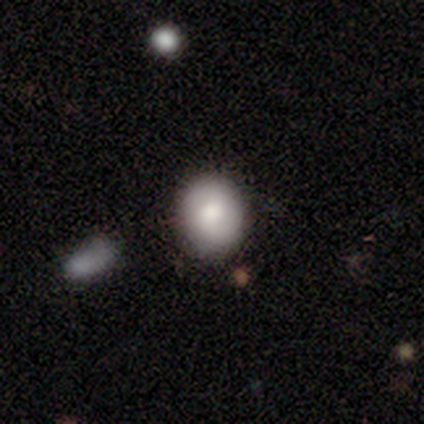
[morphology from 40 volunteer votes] Smooth or featured?
  - smooth: 75% *
  - featured or disk: 25%
  - star or artifact: 0%
How rounded?
  - round: 77% *
  - in between: 23%
  - cigar-shaped: 0%
Merging?
  - none: 62% *
  - merger: 10%
  - minor disturbance: 8%
  - major disturbance: 2%